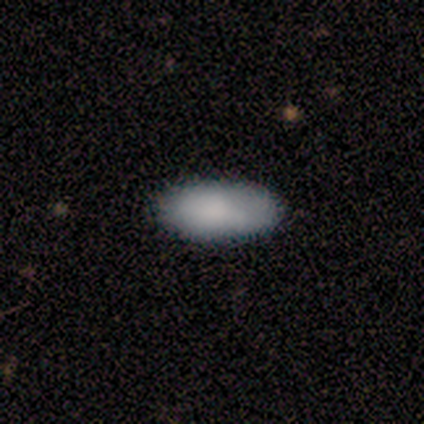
smooth_or_featured: smooth (p=1.00)
how_rounded: in between (p=1.00)
merging: none (p=1.00)